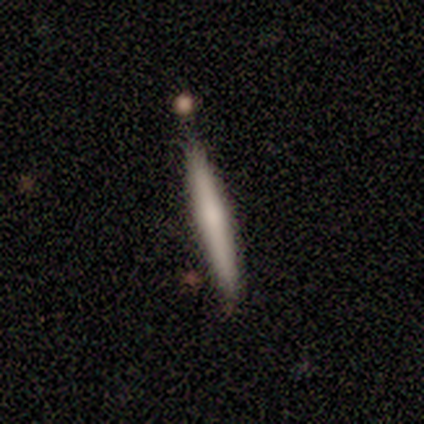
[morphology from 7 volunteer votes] smooth_or_featured: smooth (p=0.86) [alt: featured or disk p=0.14]
how_rounded: cigar-shaped (p=1.00)
merging: none (p=0.86) [alt: minor disturbance p=0.14]